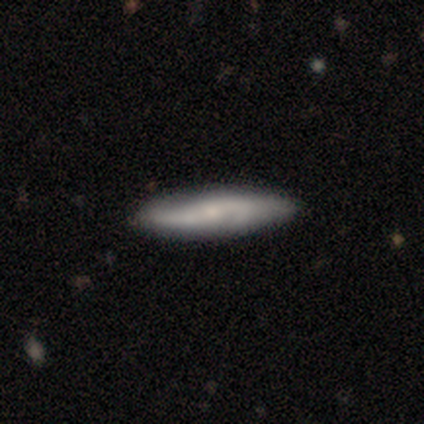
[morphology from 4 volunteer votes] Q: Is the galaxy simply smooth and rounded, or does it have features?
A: featured or disk — 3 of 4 (75%).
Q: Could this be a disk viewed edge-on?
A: yes — 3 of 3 (100%).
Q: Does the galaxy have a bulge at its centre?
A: rounded — 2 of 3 (67%).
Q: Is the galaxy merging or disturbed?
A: none — 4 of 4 (100%).